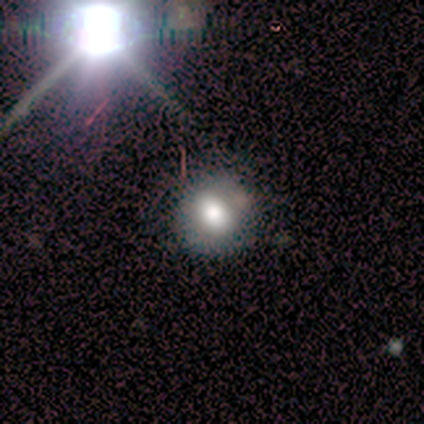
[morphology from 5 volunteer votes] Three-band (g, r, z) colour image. It shows a smooth galaxy with no disk features (80%) that is round (100%). Merging: none (80%).